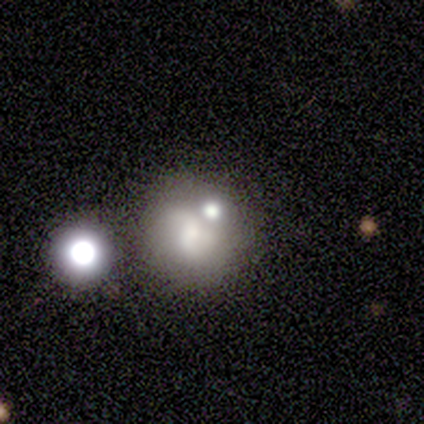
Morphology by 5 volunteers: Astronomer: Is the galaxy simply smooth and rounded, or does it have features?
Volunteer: featured or disk — 80%.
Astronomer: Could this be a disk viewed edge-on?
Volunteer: no — 100%.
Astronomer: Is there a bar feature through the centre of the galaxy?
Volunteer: strong — 50%, tied with no at 50%.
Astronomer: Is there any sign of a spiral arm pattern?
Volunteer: yes — 50%, tied with no at 50%.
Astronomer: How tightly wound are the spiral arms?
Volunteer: tight — 50%, tied with medium at 50%.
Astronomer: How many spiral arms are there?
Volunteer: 2 — 50%, tied with 3 at 50%.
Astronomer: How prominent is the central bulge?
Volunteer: moderate — 50%.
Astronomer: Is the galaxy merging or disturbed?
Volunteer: none — 40%, tied with merger at 40%.